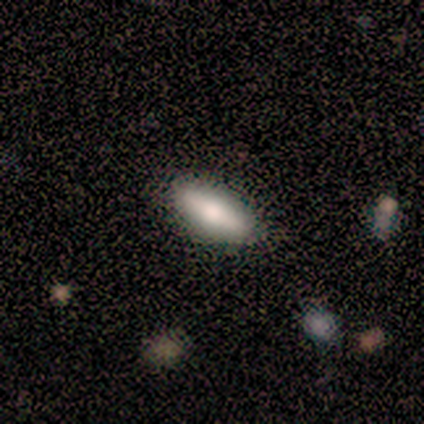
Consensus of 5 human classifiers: Smooth or featured? 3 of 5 (60%) said smooth. How rounded? 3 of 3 (100%) said in between. Merging? 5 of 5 (100%) said none.